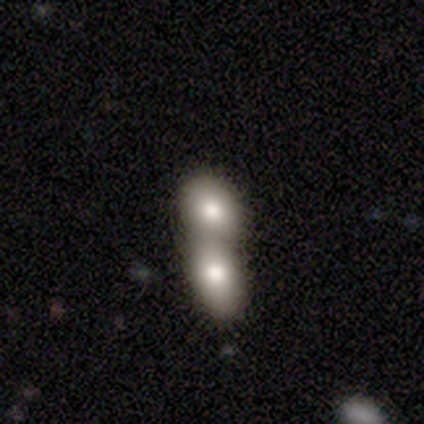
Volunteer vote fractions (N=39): A smooth galaxy with no disk features (69%) that is in between round and cigar-shaped (78%). Merging: merger (94%).